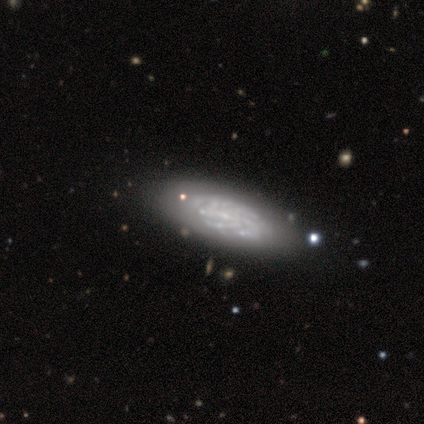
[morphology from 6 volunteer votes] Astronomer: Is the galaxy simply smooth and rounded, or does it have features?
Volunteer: featured or disk — 83%.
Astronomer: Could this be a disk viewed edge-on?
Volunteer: no — 100%.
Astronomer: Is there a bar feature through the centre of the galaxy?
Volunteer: no — 60% (runner-up: weak, 40%).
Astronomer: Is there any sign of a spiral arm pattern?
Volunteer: yes — 100%.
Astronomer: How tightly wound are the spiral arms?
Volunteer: tight — 80%.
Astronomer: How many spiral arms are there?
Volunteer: can't tell — 60% (runner-up: more than 4, 40%).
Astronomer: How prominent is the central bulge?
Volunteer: small — 80%.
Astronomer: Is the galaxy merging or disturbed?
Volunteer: none — 80%.